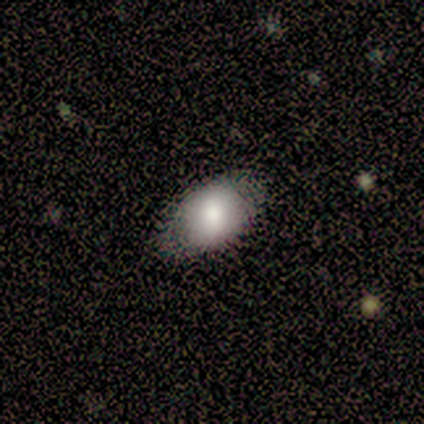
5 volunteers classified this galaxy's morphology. type=smooth (60%); roundness=round (67%); merging=none (80%).